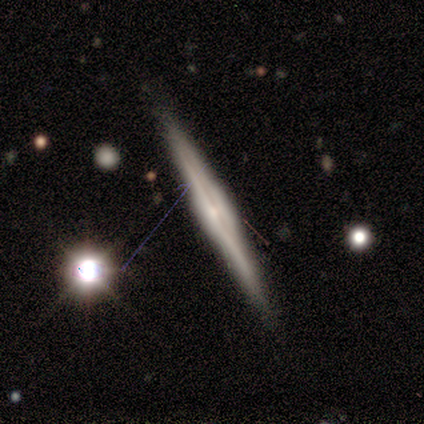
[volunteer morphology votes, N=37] featured or disk 78%, smooth 19%, star or artifact 3%. Down the decision tree: edge-on disk — yes (97%); edge-on bulge — boxy (39%, tied with rounded); merging — none (92%).